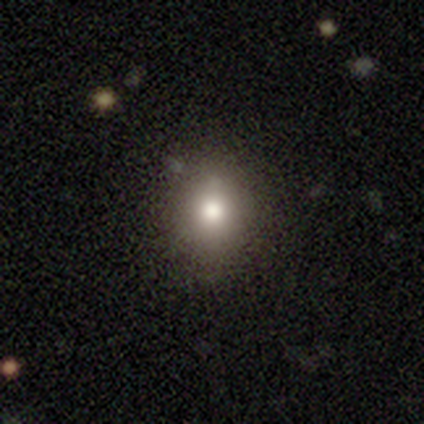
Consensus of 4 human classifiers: smooth-or-featured: smooth: 50% | featured or disk: 25% | star or artifact: 25%
  how-rounded: round: 100% | in between: 0% | cigar-shaped: 0%
  merging: none: 100% | minor disturbance: 0% | major disturbance: 0% | merger: 0%